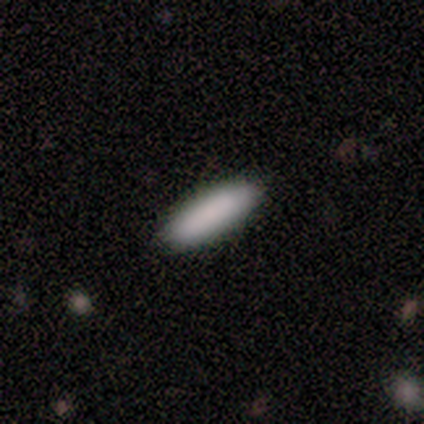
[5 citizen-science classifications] Smooth or featured? smooth (100%)
How rounded? in between (60%)
Merging? none (100%)